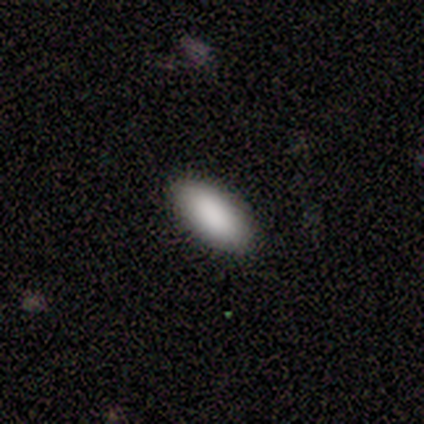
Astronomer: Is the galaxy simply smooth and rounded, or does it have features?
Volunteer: smooth — 100%.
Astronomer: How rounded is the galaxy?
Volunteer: in between — 100%.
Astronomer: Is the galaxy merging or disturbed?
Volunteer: none — 100%.